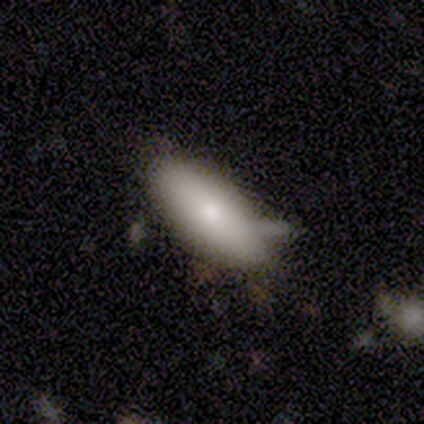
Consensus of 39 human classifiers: Smooth or featured? 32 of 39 (82%) said smooth. How rounded? 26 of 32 (81%) said in between. Merging? 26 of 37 (70%) said none.